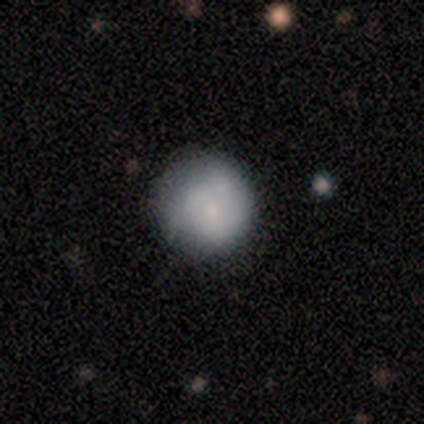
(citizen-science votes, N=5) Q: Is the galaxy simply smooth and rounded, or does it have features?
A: featured or disk — 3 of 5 (60%).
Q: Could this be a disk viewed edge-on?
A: no — 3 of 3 (100%).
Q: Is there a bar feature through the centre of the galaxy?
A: no — 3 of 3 (100%).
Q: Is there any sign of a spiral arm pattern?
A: no — 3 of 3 (100%).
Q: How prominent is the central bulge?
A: small — 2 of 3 (67%).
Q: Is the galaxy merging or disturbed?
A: none — 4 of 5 (80%).